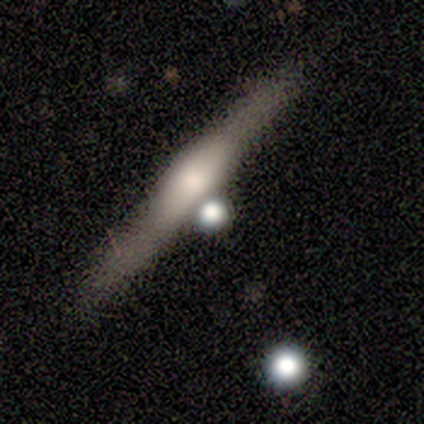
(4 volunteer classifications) Overall: featured or disk (100%). Edge-on disk: yes (100%). Edge-on bulge: boxy (50%, tied with rounded). Merging: none (100%).